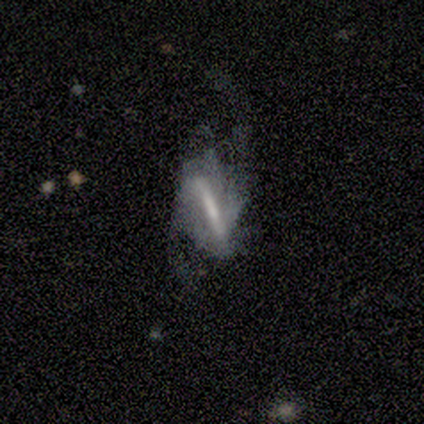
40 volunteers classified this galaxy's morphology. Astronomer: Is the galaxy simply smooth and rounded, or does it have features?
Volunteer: featured or disk — 68%.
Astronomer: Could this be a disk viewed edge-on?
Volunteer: no — 74%.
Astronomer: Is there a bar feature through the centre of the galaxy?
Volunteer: strong — 85%.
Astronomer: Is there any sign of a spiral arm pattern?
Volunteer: yes — 80%.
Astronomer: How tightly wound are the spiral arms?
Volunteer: loose — 69%.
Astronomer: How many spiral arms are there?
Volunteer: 2 — 81%.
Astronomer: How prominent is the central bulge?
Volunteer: none — 45% (runner-up: small, 30%).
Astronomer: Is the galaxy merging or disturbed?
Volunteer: major disturbance — 43% (runner-up: none, 38%).